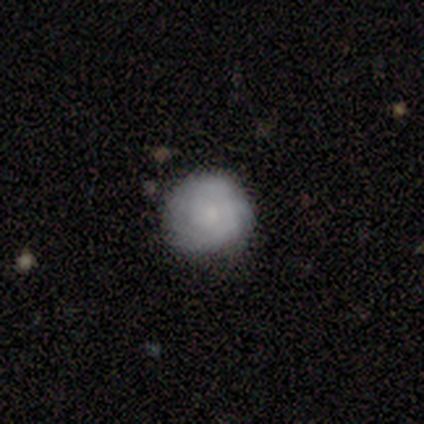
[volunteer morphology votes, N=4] smooth-or-featured: smooth: 100% | featured or disk: 0% | star or artifact: 0%
  how-rounded: round: 75% | in between: 25% | cigar-shaped: 0%
  merging: none: 75% | minor disturbance: 25% | major disturbance: 0% | merger: 0%